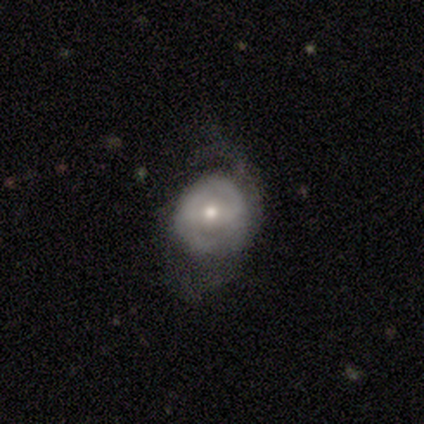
Smooth or featured?
  - featured or disk: 70% *
  - smooth: 30%
  - star or artifact: 0%
Edge-on disk?
  - no: 96% *
  - yes: 4%
Bar?
  - weak: 44% *
  - no: 37%
  - strong: 19%
Spiral arms?
  - yes: 56% *
  - no: 44%
Spiral winding?
  - medium: 60% *
  - tight: 33%
  - loose: 7%
Spiral arm count?
  - 2: 53% *
  - can't tell: 27%
  - 1: 13%
  - 4: 7%
  - 3: 0%
  - more than 4: 0%
Bulge size?
  - moderate: 48% *
  - small: 44%
  - dominant: 4%
  - large: 4%
  - none: 0%
Merging?
  - major disturbance: 38% *
  - none: 32%
  - minor disturbance: 30%
  - merger: 0%